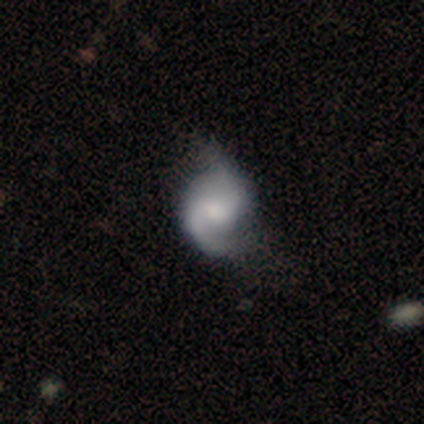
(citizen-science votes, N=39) Morphology: type=featured or disk (85%); edge-on=no (97%); bar=no (56%); spiral arms=yes (94%); winding=medium (37%, tied with loose); arm count=2 (80%); bulge=moderate (59%); merging=none (33%).